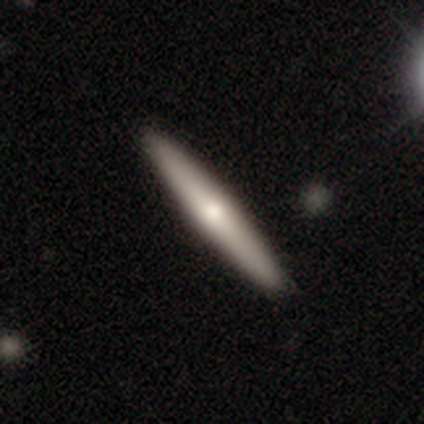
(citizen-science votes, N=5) Morphology: type=featured or disk (60%); edge-on=yes (100%); edge-on bulge=rounded (100%); merging=none (80%).